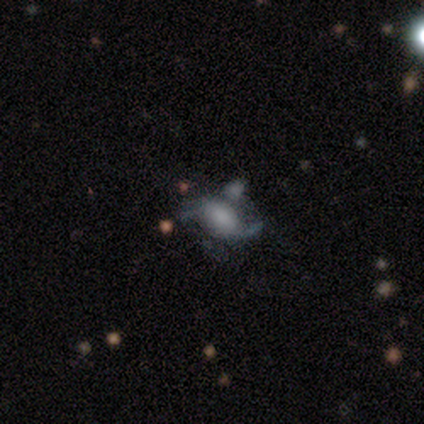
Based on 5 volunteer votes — Smooth or featured? featured or disk (60%)
Edge-on disk? no (67%)
Bar? weak (50%, tied with no)
Spiral arms? yes (50%, tied with no)
Spiral winding? loose (100%)
Spiral arm count? 2 (100%)
Bulge size? dominant (50%, tied with small)
Merging? major disturbance (80%)